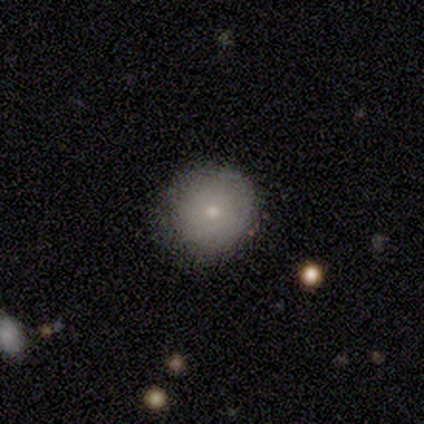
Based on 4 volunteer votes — This is clearly a smooth galaxy (100%). How rounded: clearly round (100%). Merging: likely none (75%).